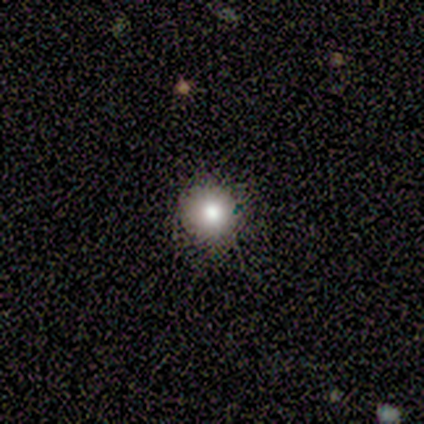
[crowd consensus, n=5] smooth-or-featured: smooth: 80% | star or artifact: 20% | featured or disk: 0%
  how-rounded: round: 100% | in between: 0% | cigar-shaped: 0%
  merging: none: 100% | minor disturbance: 0% | major disturbance: 0% | merger: 0%